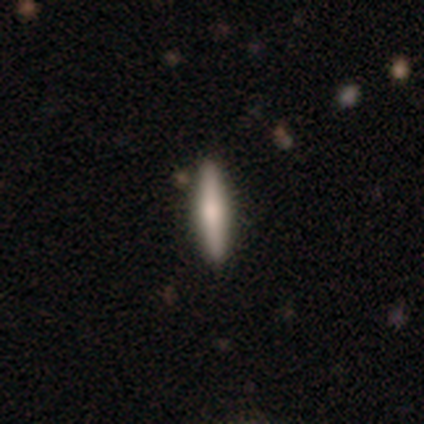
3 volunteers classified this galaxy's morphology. type=featured or disk (67%); edge-on=yes (100%); edge-on bulge=rounded (100%); merging=none (67%).